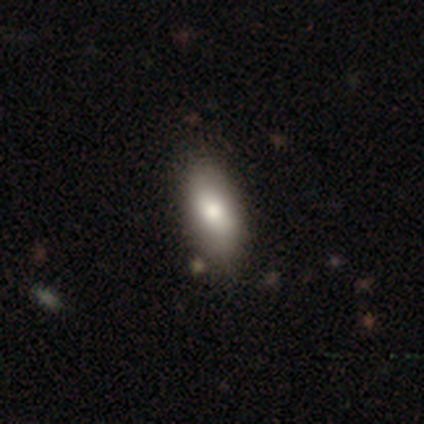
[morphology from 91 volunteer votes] A smooth galaxy with no disk features (79%) that is in between round and cigar-shaped (85%). Merging: none (80%).